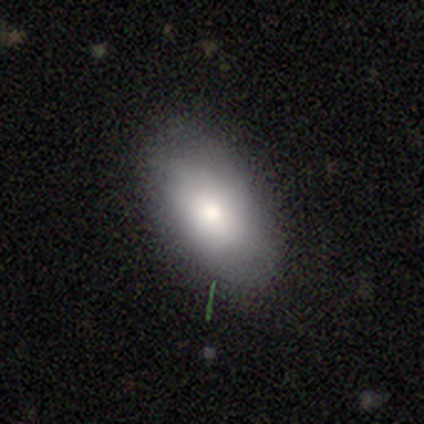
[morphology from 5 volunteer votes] smooth 60%, featured or disk 40%, star or artifact 0%. Down the decision tree: how rounded — in between (100%); merging — none (80%).